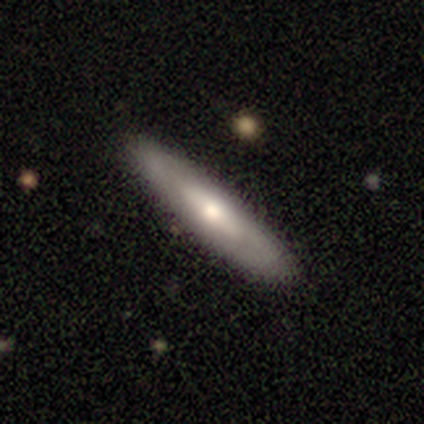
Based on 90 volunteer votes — Volunteers were most divided on "smooth or featured": featured or disk: 50%, smooth: 47%, star or artifact: 3%. More confident: merging — none (92%); edge-on bulge — rounded (79%); edge-on disk — yes (53%).